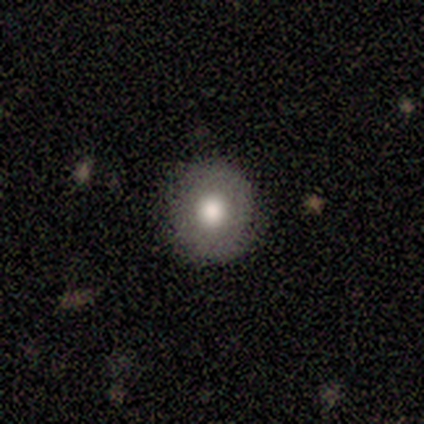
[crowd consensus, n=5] Smooth or featured? 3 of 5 (60%) said smooth. How rounded? 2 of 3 (67%) said round. Merging? 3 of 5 (60%) said none.